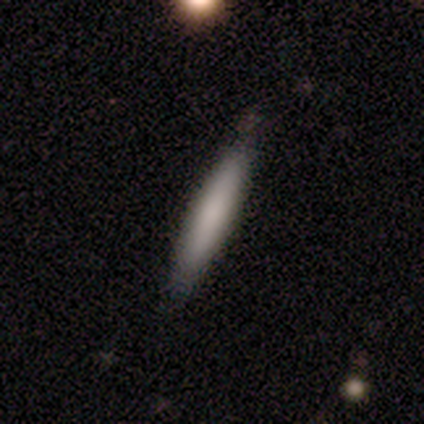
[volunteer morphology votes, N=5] Smooth or featured? smooth (100%)
How rounded? cigar-shaped (100%)
Merging? none (80%)